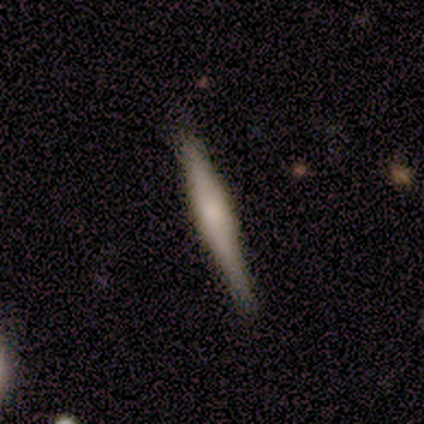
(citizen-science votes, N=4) Q: Smooth or featured?
A: featured or disk (75%); runner-up: star or artifact (25%)
Q: Edge-on disk?
A: yes (67%); runner-up: no (33%)
Q: Edge-on bulge?
A: boxy (50%); tied with: rounded (50%)
Q: Merging?
A: none (100%)